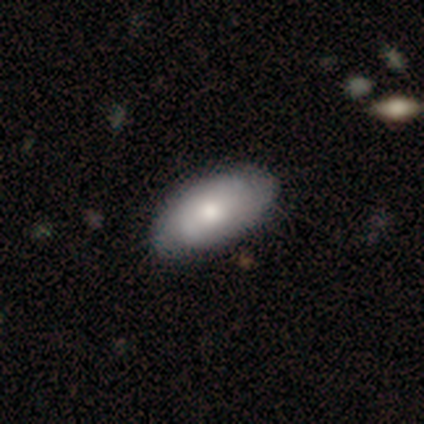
This appears to be a smooth galaxy with no disk features (50%, tied with featured or disk) that is in between round and cigar-shaped (95%). Merging: none (62%).